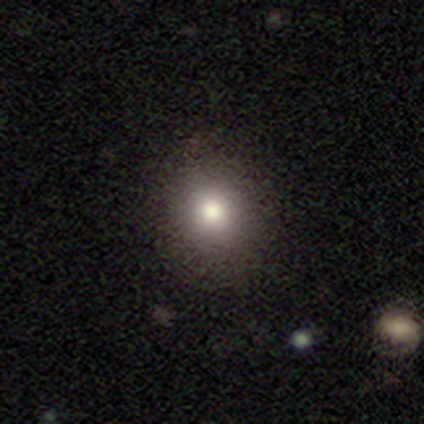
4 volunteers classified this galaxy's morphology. This appears to be a smooth galaxy with no disk features (100%) that is round (75%). Merging: none (75%).